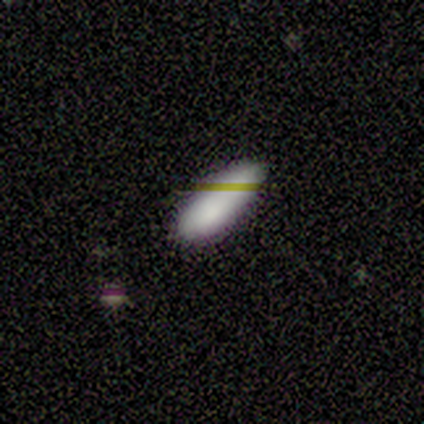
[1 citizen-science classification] A smooth galaxy with no disk features (100%) that is in between round and cigar-shaped (100%).

Vote fractions:
- Smooth or featured? smooth: 100% / featured or disk: 0% / star or artifact: 0%
- How rounded? in between: 100% / round: 0% / cigar-shaped: 0%
- Merging? none: 100% / minor disturbance: 0% / major disturbance: 0% / merger: 0%